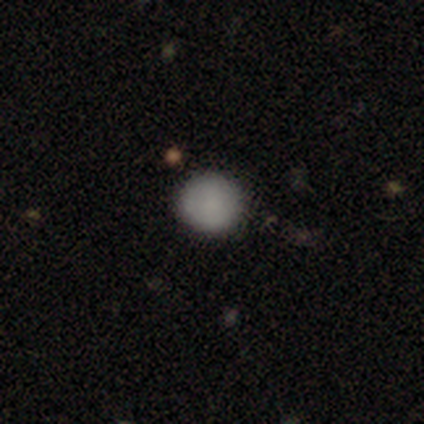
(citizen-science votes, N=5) smooth-or-featured: smooth: 60% | featured or disk: 40% | star or artifact: 0%
  how-rounded: round: 100% | in between: 0% | cigar-shaped: 0%
  merging: none: 100% | minor disturbance: 0% | major disturbance: 0% | merger: 0%